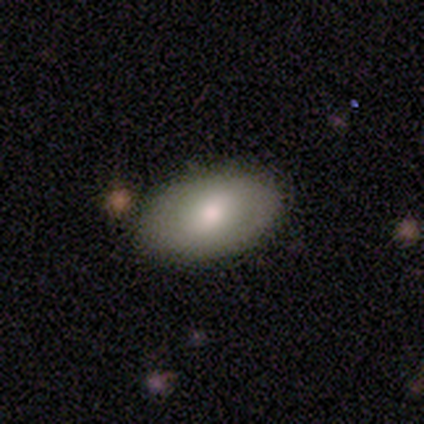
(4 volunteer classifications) This appears to be a smooth galaxy with no disk features (75%) that is in between round and cigar-shaped (67%). Merging: none (100%).